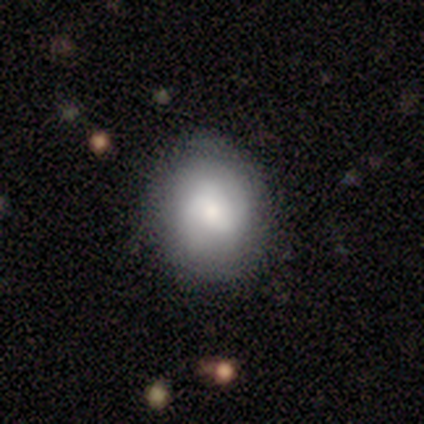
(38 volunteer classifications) This is likely a smooth galaxy (63%). How rounded: clearly round (83%). Merging: likely none (74%).